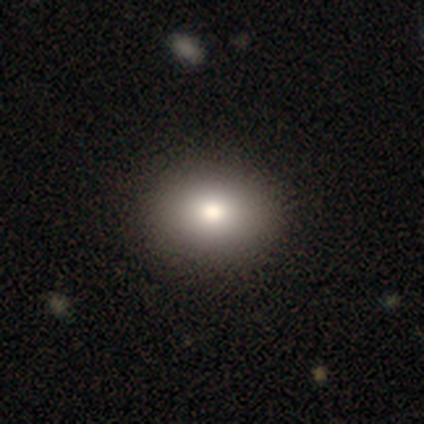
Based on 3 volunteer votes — Morphology: type=smooth (67%); roundness=round (50%, tied with in between); merging=none (100%).